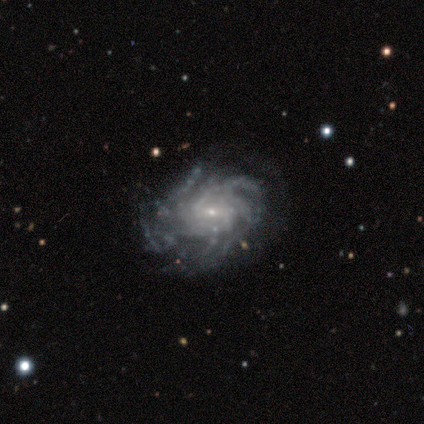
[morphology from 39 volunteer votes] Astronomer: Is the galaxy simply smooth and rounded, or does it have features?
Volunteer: featured or disk — 97%.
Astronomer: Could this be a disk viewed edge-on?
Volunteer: no — 100%.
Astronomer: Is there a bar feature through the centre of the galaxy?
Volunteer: no — 47% (runner-up: weak, 45%).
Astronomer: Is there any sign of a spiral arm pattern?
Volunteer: yes — 95%.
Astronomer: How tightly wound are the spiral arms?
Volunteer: tight — 64%.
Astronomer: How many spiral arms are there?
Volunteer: more than 4 — 61%.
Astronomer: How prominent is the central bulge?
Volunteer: small — 89%.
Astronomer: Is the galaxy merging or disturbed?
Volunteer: none — 77%.